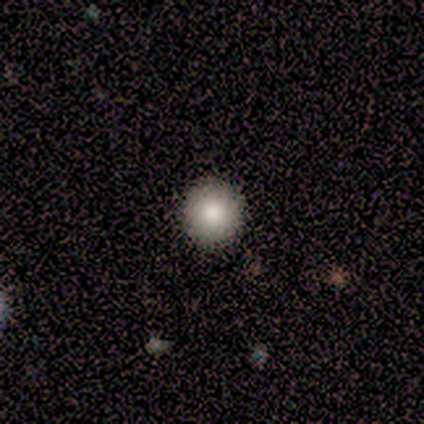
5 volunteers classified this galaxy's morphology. Smooth or featured?
  - smooth: 100% *
  - featured or disk: 0%
  - star or artifact: 0%
How rounded?
  - round: 100% *
  - in between: 0%
  - cigar-shaped: 0%
Merging?
  - none: 100% *
  - minor disturbance: 0%
  - major disturbance: 0%
  - merger: 0%